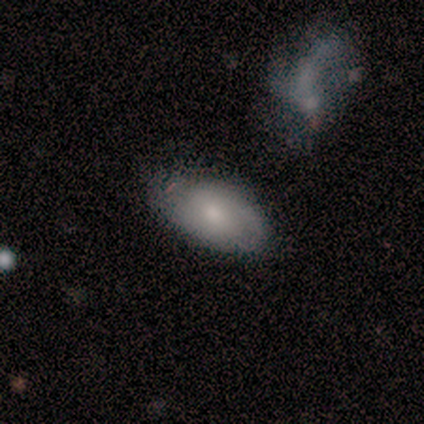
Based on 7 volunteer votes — Volunteers were most divided on "merging": minor disturbance: 57%, none: 43%, major disturbance: 0%, merger: 0%. More confident: smooth or featured — smooth (100%); how rounded — in between (100%).